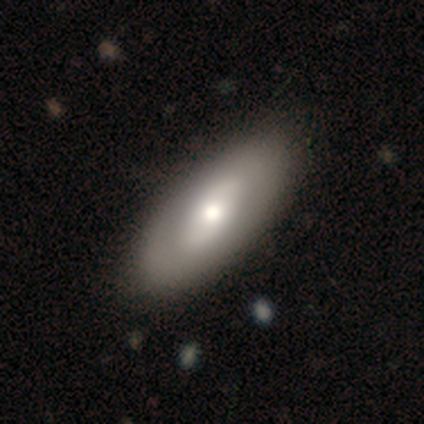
Smooth or featured? smooth (60%)
How rounded? in between (92%)
Merging? none (65%)